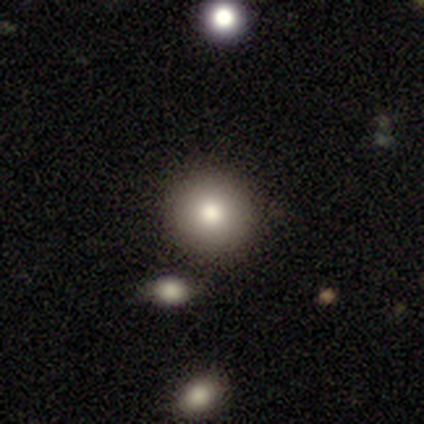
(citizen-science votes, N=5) Smooth or featured: smooth — 80% (star or artifact — 20%)
How rounded: round — 100%
Merging: none — 50% (minor disturbance — 25%)